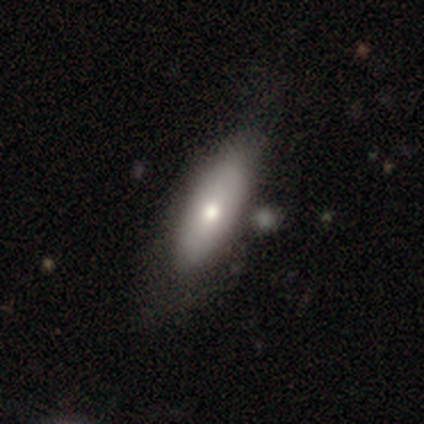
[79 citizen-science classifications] This is likely a smooth galaxy (80%). How rounded: likely in between (75%). Merging: marginally none (35%).